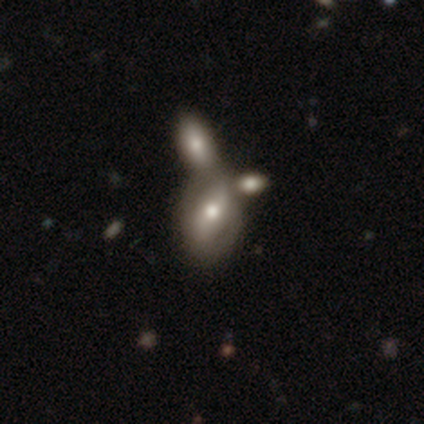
smooth-or-featured: smooth: 55% | featured or disk: 45% | star or artifact: 0%
  how-rounded: in between: 91% | round: 5% | cigar-shaped: 5%
  merging: merger: 62% | none: 20% | minor disturbance: 5% | major disturbance: 5%